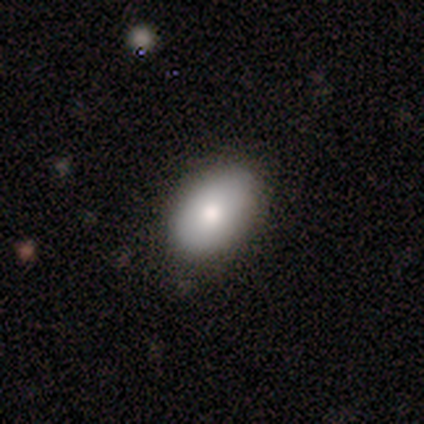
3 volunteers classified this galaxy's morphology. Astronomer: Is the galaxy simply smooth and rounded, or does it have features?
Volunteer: smooth — 67%.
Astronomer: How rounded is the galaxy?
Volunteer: in between — 100%.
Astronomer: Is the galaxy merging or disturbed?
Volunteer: none — 100%.